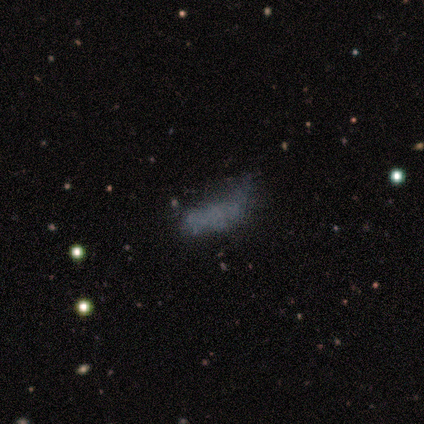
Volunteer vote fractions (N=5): smooth 40% (tied), featured or disk 40% (tied), star or artifact 20%. Down the decision tree: how rounded — in between (100%); merging — minor disturbance (50%, tied with major disturbance).